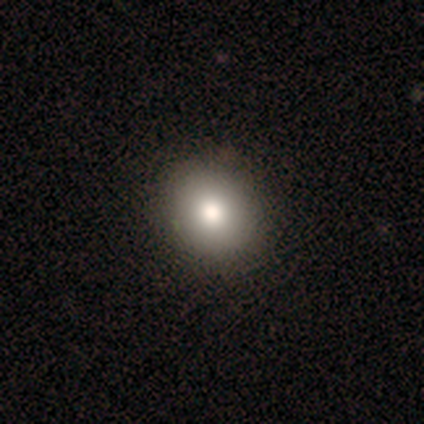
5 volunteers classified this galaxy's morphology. Smooth or featured? smooth (100%)
How rounded? round (80%)
Merging? none (80%)